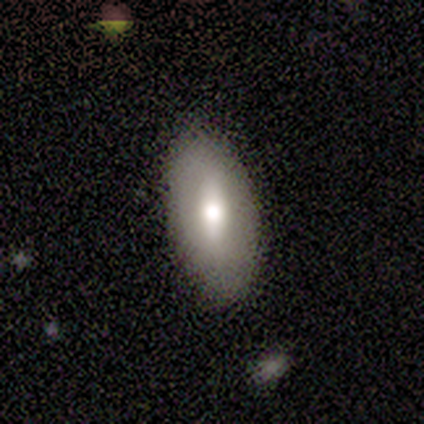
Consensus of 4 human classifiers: Overall: smooth (50%, tied with featured or disk). How rounded: in between (100%). Merging: none (100%).